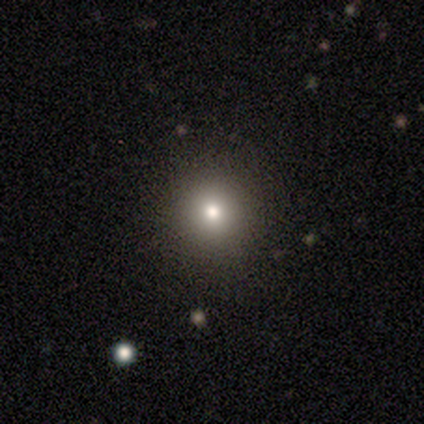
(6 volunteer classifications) smooth-or-featured: smooth: 83% | star or artifact: 17% | featured or disk: 0%
  how-rounded: round: 100% | in between: 0% | cigar-shaped: 0%
  merging: none: 100% | minor disturbance: 0% | major disturbance: 0% | merger: 0%